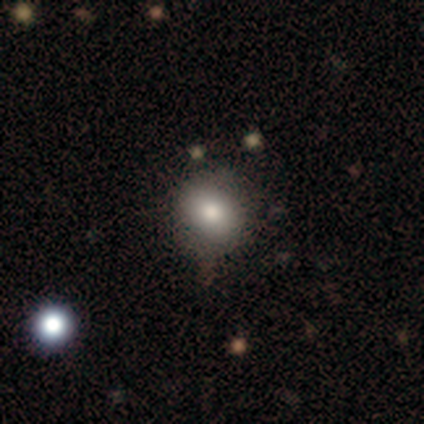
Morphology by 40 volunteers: smooth_or_featured: smooth (p=0.78) [alt: featured or disk p=0.15]
how_rounded: round (p=0.81) [alt: in between p=0.19]
merging: none (p=0.81) [alt: minor disturbance p=0.16]